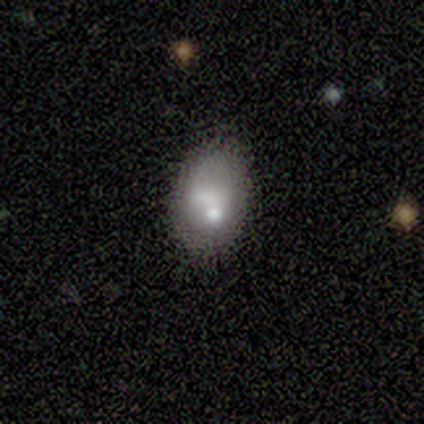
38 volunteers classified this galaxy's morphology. smooth 74%, featured or disk 24%, star or artifact 3%. Down the decision tree: how rounded — in between (75%); merging — none (65%).